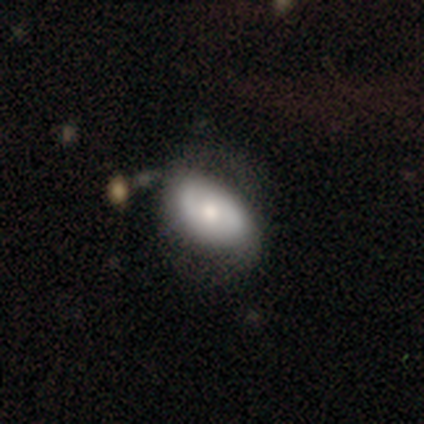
A smooth galaxy with no disk features (54%) that is in between round and cigar-shaped (93%). Merging: none (34%).